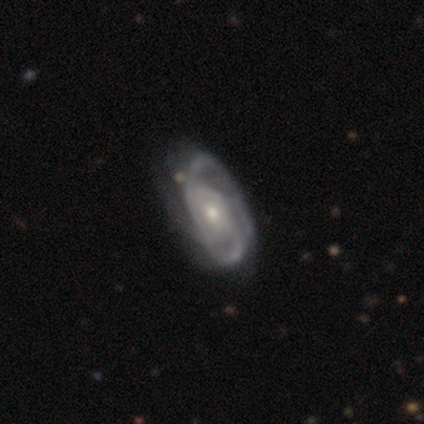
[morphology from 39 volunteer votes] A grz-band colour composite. It shows a featured or disk galaxy (90%) with no bar (77%), medium (50%) spiral arms (97%) and a moderate central bulge (51%). Merging: none (38%).